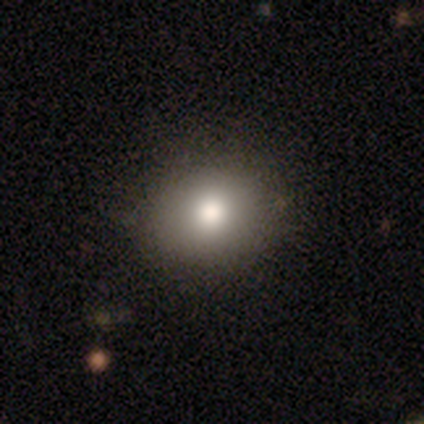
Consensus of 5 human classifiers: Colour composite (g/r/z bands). It shows a smooth galaxy with no disk features (40%, tied with featured or disk) that is round (100%). Merging: none (100%).